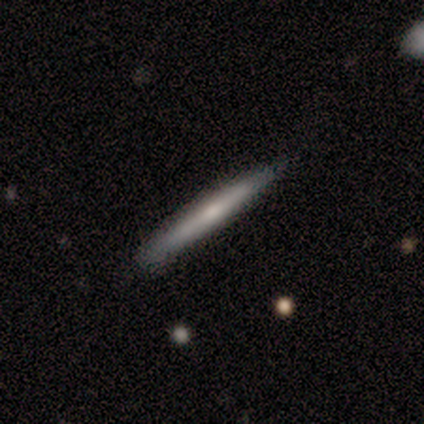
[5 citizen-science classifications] Smooth or featured? smooth (60%)
How rounded? cigar-shaped (100%)
Merging? none (100%)